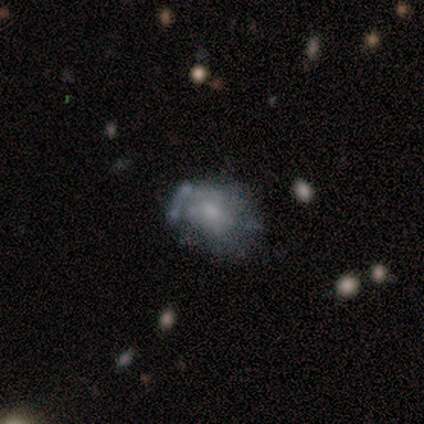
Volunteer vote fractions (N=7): smooth-or-featured: smooth: 71% | featured or disk: 14% | star or artifact: 14%
  how-rounded: round: 80% | in between: 20% | cigar-shaped: 0%
  merging: none: 33% (tied) | major disturbance: 33% (tied) | minor disturbance: 17% | merger: 17%